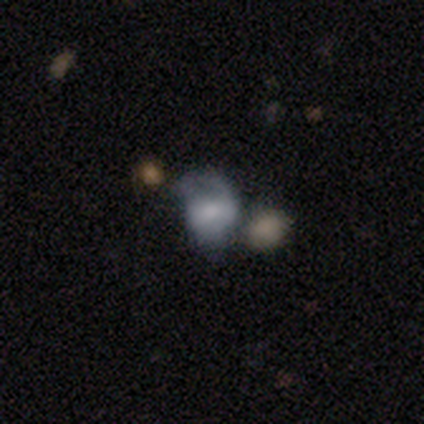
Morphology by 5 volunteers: smooth-or-featured: featured or disk: 60% | smooth: 40% | star or artifact: 0%
  disk-edge-on: no: 67% | yes: 33%
    bar: strong: 50% (tied) | weak: 50% (tied) | no: 0%
    has-spiral-arms: yes: 100% | no: 0%
      spiral-winding: medium: 50% (tied) | loose: 50% (tied) | tight: 0%
      spiral-arm-count: 1: 50% (tied) | can't tell: 50% (tied) | 2: 0% | 3: 0% | 4: 0% | more than 4: 0%
    bulge-size: moderate: 50% (tied) | small: 50% (tied) | dominant: 0% | large: 0% | none: 0%
  merging: merger: 40% | none: 20% | minor disturbance: 20% | major disturbance: 20%